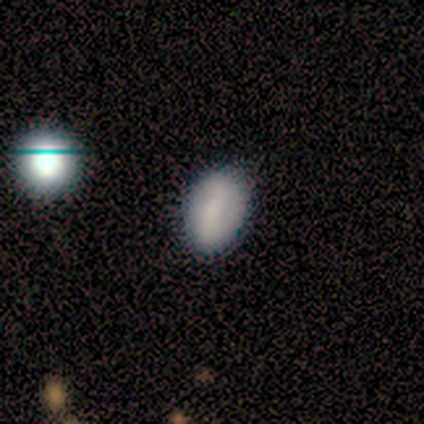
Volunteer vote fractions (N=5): Smooth or featured?
  - smooth: 100% *
  - featured or disk: 0%
  - star or artifact: 0%
How rounded?
  - in between: 100% *
  - round: 0%
  - cigar-shaped: 0%
Merging?
  - none: 80% *
  - major disturbance: 20%
  - minor disturbance: 0%
  - merger: 0%